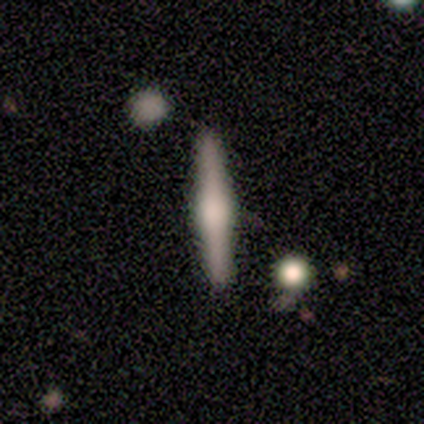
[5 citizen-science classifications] Morphology: type=featured or disk (80%); edge-on=yes (100%); edge-on bulge=rounded (100%); merging=none (80%).